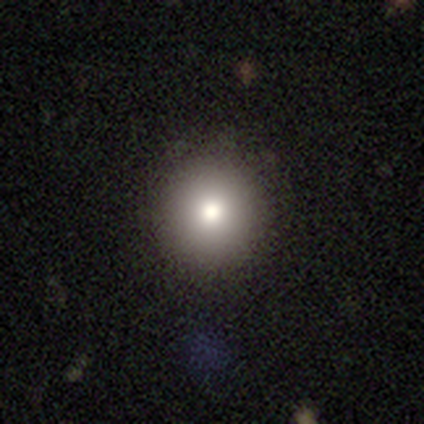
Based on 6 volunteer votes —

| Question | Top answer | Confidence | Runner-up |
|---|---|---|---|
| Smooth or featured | smooth | 83% | star or artifact (17%) |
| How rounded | round | 80% | in between (20%) |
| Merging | none | 80% | minor disturbance (20%) |